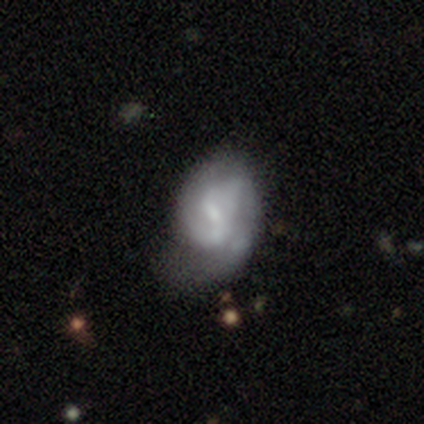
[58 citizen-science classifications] Overall: featured or disk (67%). Edge-on disk: no (95%). Bar: weak (54%; no 38%). Spiral arms: yes (68%; no 32%). Spiral arm count: 2 (60%; can't tell 28%). Spiral winding: medium (52%; tight 40%). Bulge size: small (54%; moderate 30%). Merging: minor disturbance (41%; major disturbance 31%).